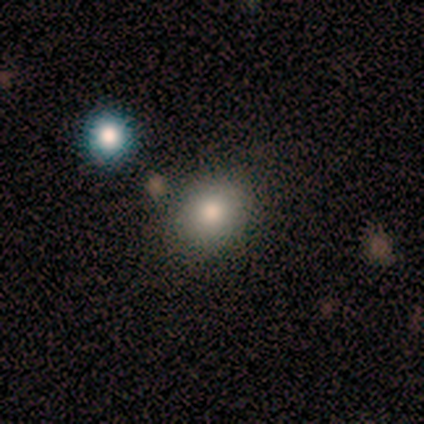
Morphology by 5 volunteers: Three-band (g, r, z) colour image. It shows a smooth galaxy with no disk features (60%) that is in between round and cigar-shaped (67%). Merging: none (100%).